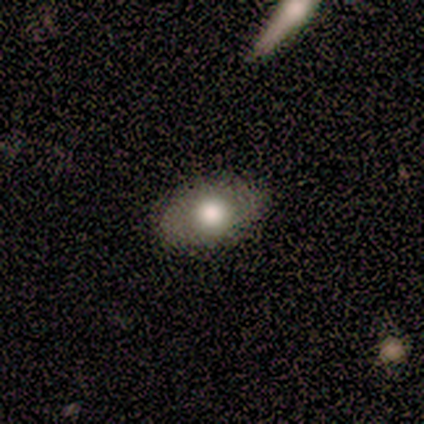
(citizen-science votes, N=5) Smooth or featured: smooth — 100%
How rounded: in between — 100%
Merging: none — 80% (minor disturbance — 20%)